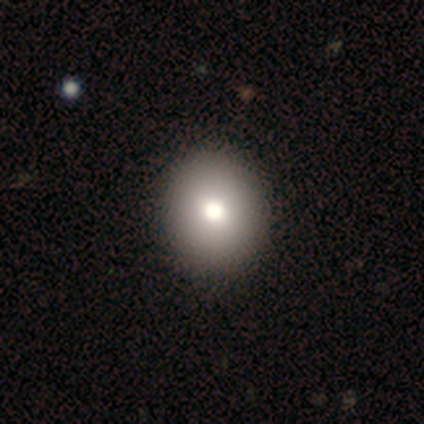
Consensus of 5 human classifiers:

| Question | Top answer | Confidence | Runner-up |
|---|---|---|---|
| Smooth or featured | smooth | 80% | featured or disk (20%) |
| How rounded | round | 75% | in between (25%) |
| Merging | none | 100% | — |